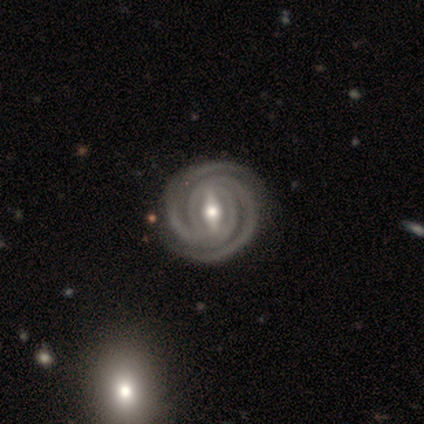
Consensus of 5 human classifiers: featured or disk 100%, smooth 0%, star or artifact 0%. Down the decision tree: edge-on disk — no (100%); bar — weak (60%); spiral arms — yes (100%); spiral arm count — 2 (100%); spiral winding — tight (100%); bulge size — moderate (100%); merging — none (100%).